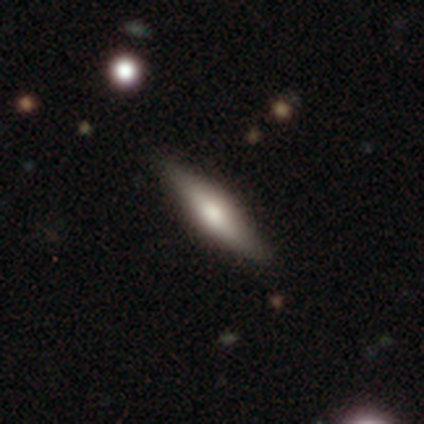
Volunteers were most divided on "smooth or featured": smooth: 60%, featured or disk: 20%, star or artifact: 20%. More confident: how rounded — cigar-shaped (100%); merging — none (100%).